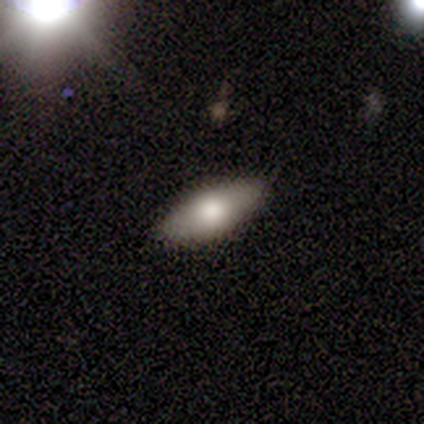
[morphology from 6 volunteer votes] Overall: smooth (83%). How rounded: in between (40%, tied with cigar-shaped). Merging: none (100%).